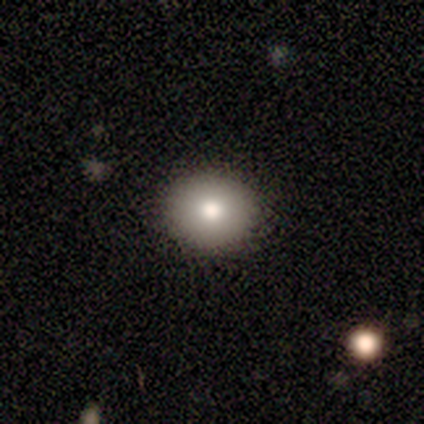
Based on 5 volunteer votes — Smooth or featured? smooth (100%)
How rounded? in between (60%)
Merging? none (100%)